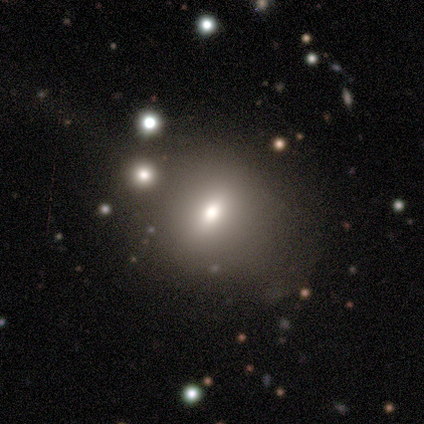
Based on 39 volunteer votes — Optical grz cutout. It shows a smooth galaxy with no disk features (67%) that is round (50%). Merging: none (76%).